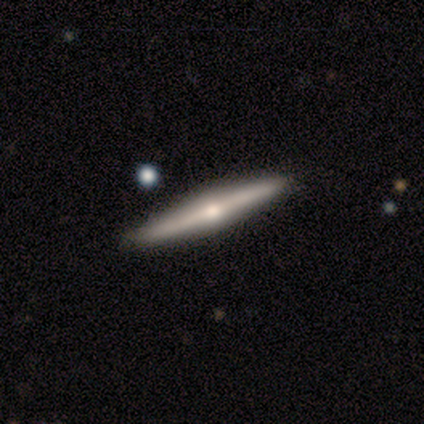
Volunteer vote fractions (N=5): featured or disk 100%, smooth 0%, star or artifact 0%. Down the decision tree: edge-on disk — yes (80%); edge-on bulge — rounded (100%); merging — none (80%).